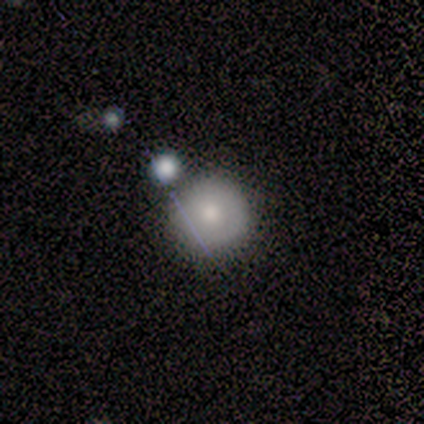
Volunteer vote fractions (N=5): Smooth or featured? 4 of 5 (80%) said smooth. How rounded? 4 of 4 (100%) said round. Merging? 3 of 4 (75%) said none.